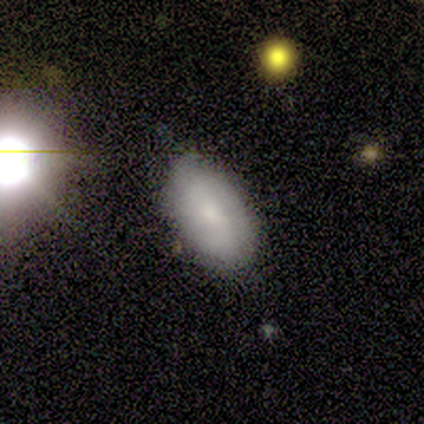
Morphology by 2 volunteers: This appears to be a smooth galaxy with no disk features (50%, tied with featured or disk) that is in between round and cigar-shaped (100%). Merging: none (50%, tied with major disturbance).